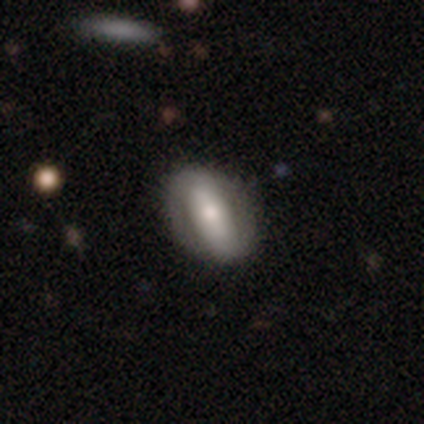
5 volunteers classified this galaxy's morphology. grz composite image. It shows a featured or disk galaxy (60%) with a strong bar (67%), no spiral arms (67%) and a dominant central bulge (33%, tied with moderate and small). Merging: none (60%).